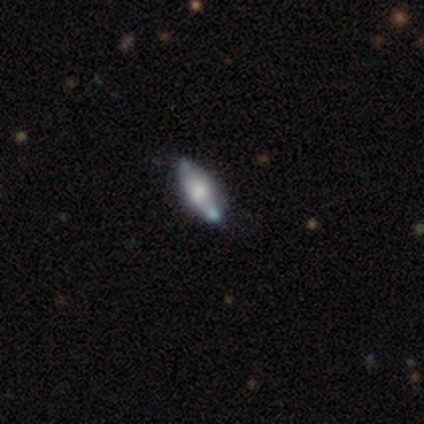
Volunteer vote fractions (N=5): Smooth or featured?
  - featured or disk: 40% * (tied)
  - star or artifact: 40% * (tied)
  - smooth: 20%
Edge-on disk?
  - no: 100% *
  - yes: 0%
Bar?
  - no: 100% *
  - strong: 0%
  - weak: 0%
Spiral arms?
  - yes: 50% * (tied)
  - no: 50% * (tied)
Spiral winding?
  - tight: 100% *
  - medium: 0%
  - loose: 0%
Spiral arm count?
  - 2: 100% *
  - 1: 0%
  - 3: 0%
  - 4: 0%
  - more than 4: 0%
  - can't tell: 0%
Bulge size?
  - large: 100% *
  - dominant: 0%
  - moderate: 0%
  - small: 0%
  - none: 0%
Merging?
  - none: 100% *
  - minor disturbance: 0%
  - major disturbance: 0%
  - merger: 0%